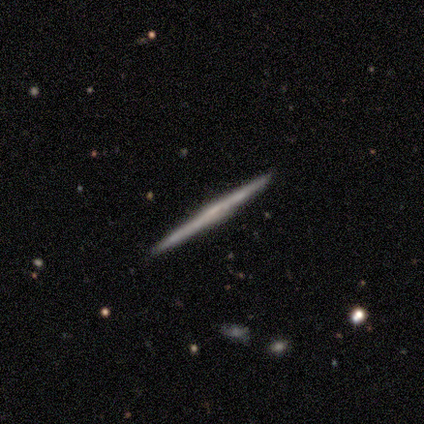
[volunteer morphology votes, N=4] Smooth or featured: smooth — 50% (tied with featured or disk — 50%)
How rounded: cigar-shaped — 100%
Merging: none — 75% (minor disturbance — 25%)